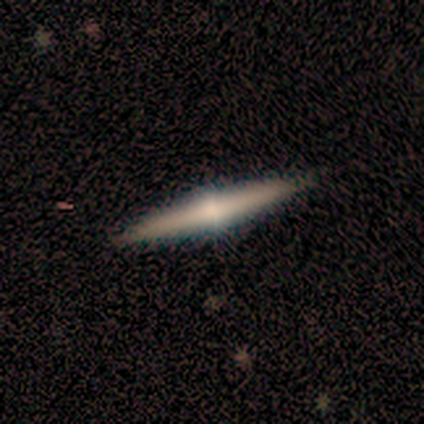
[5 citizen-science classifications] Overall: featured or disk (80%). Edge-on disk: yes (100%). Edge-on bulge: rounded (100%). Merging: none (100%).